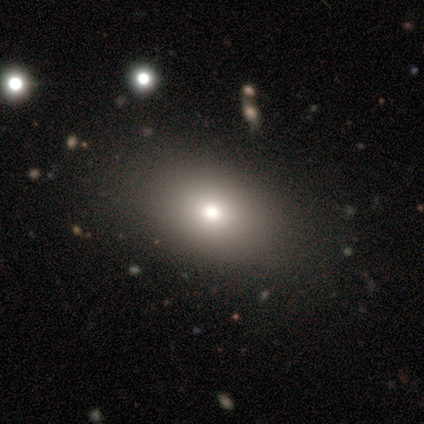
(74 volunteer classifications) A smooth galaxy with no disk features (82%) that is in between round and cigar-shaped (85%). Merging: none (51%).